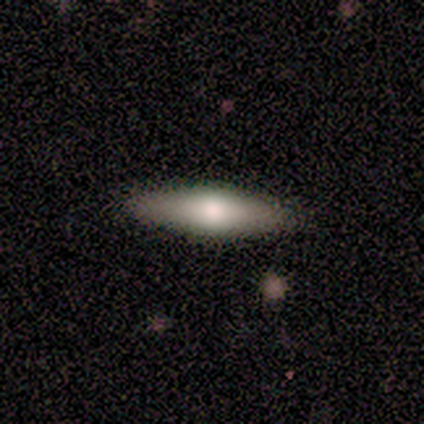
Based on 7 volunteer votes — A smooth galaxy with no disk features (86%) that is cigar-shaped (67%).

Vote fractions:
- Smooth or featured? smooth: 86% / featured or disk: 14% / star or artifact: 0%
- How rounded? cigar-shaped: 67% / in between: 33% / round: 0%
- Merging? none: 86% / minor disturbance: 14% / major disturbance: 0% / merger: 0%